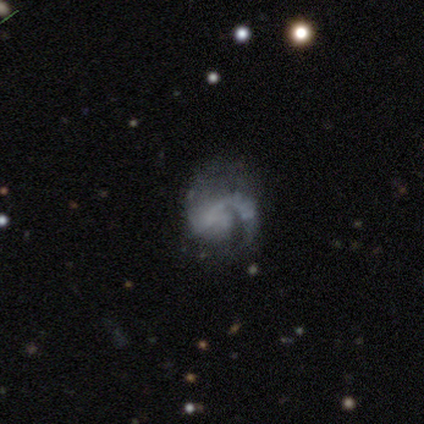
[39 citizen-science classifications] A featured or disk galaxy (82%) with no bar (77%), 1 (74%) medium (39%, tied with loose) spiral arms (74%) and no central bulge (90%).

Vote fractions:
- Smooth or featured? featured or disk: 82% / star or artifact: 10% / smooth: 8%
- Edge-on disk? no: 97% / yes: 3%
- Bar? no: 77% / weak: 19% / strong: 3%
- Spiral arms? yes: 74% / no: 26%
- Spiral winding? medium: 39% (tied) / loose: 39% (tied) / tight: 22%
- Spiral arm count? 1: 74% / 2: 13% / can't tell: 13% / 3: 0% / 4: 0% / more than 4: 0%
- Bulge size? none: 90% / small: 6% / moderate: 3% / dominant: 0% / large: 0%
- Merging? none: 46% / major disturbance: 29% / minor disturbance: 17% / merger: 9%